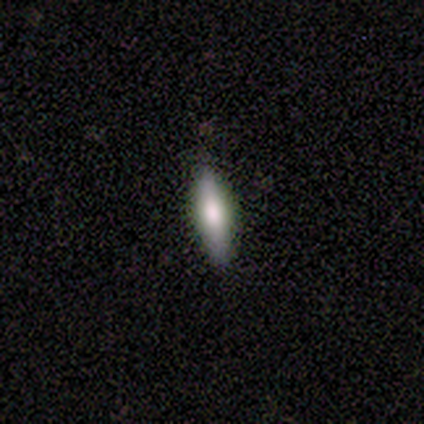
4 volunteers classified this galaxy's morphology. smooth 100%, featured or disk 0%, star or artifact 0%. Down the decision tree: how rounded — in between (50%, tied with cigar-shaped); merging — none (100%).